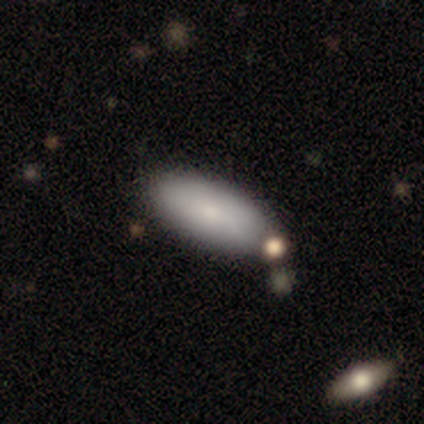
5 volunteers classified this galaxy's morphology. Q: Smooth or featured?
A: smooth (80%); runner-up: featured or disk (20%)
Q: How rounded?
A: in between (100%)
Q: Merging?
A: none (100%)